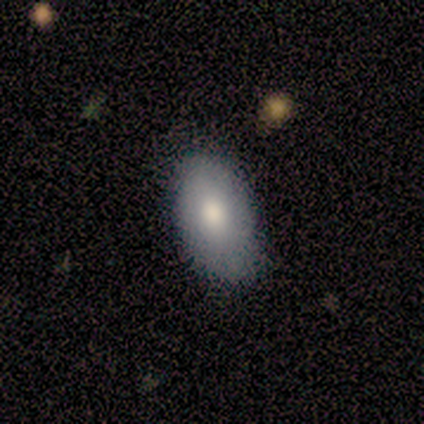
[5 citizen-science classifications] Smooth or featured? smooth (100%)
How rounded? in between (100%)
Merging? none (100%)